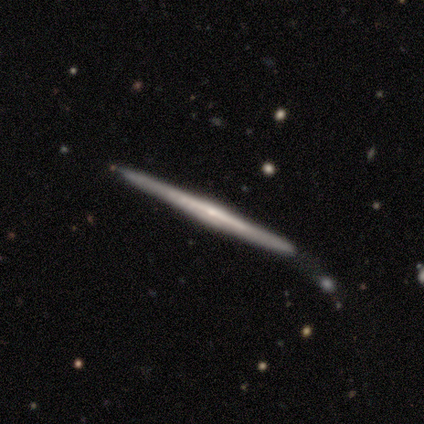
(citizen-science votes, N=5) Morphology: type=featured or disk (80%); edge-on=yes (100%); edge-on bulge=none (50%, tied with rounded); merging=none (100%).